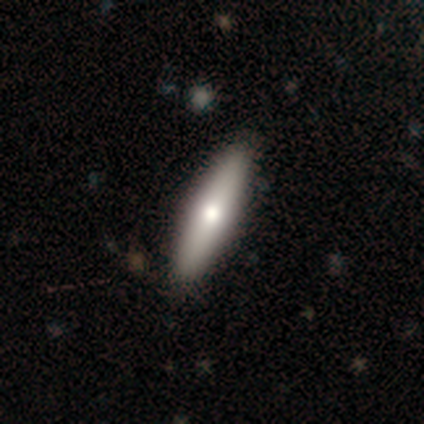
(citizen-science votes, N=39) smooth-or-featured: smooth: 67% | featured or disk: 28% | star or artifact: 5%
  how-rounded: cigar-shaped: 73% | in between: 27% | round: 0%
  merging: none: 97% | minor disturbance: 3% | major disturbance: 0% | merger: 0%